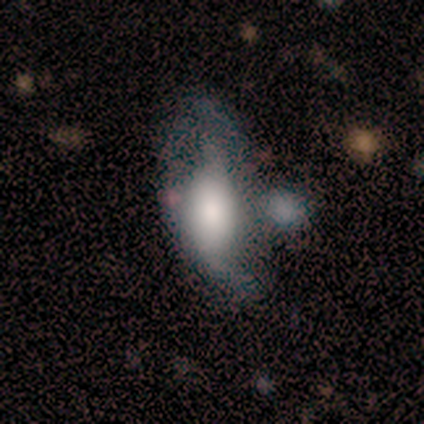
This is likely a smooth galaxy (60%). How rounded: clearly in between (100%). Merging: likely none (60%).